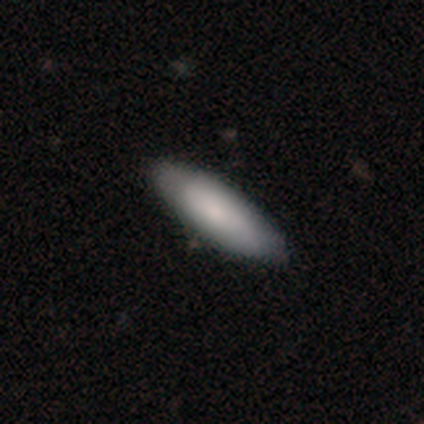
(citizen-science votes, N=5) Volunteers were most divided on "smooth or featured": smooth: 80%, featured or disk: 20%, star or artifact: 0%. More confident: how rounded — cigar-shaped (100%); merging — none (80%).